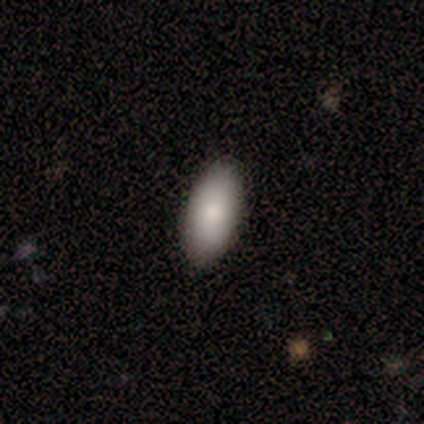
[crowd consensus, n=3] Smooth or featured? 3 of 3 (100%) said smooth. How rounded? 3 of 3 (100%) said in between. Merging? 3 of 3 (100%) said none.